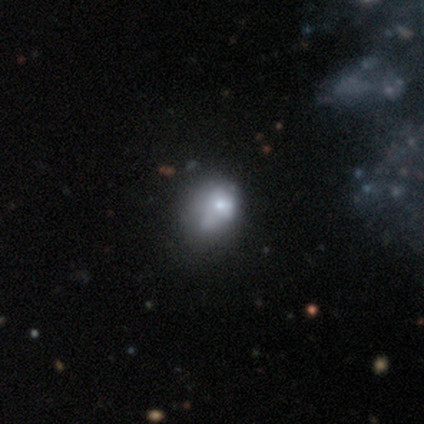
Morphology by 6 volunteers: Smooth or featured? 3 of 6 (50%) said smooth. How rounded? 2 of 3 (67%) said round. Merging? 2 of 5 (40%, tied with minor disturbance) said none.